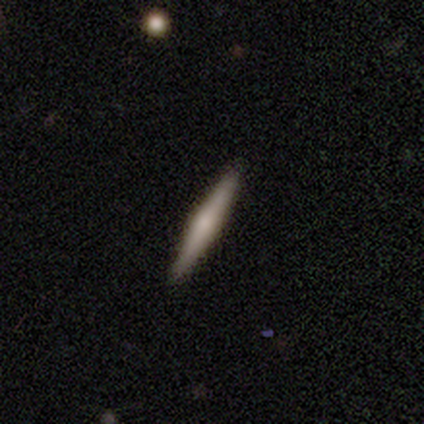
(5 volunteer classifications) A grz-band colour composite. It shows a featured or disk galaxy (60%) viewed edge-on (100%) with a rounded central bulge (100%). Merging: none (100%).